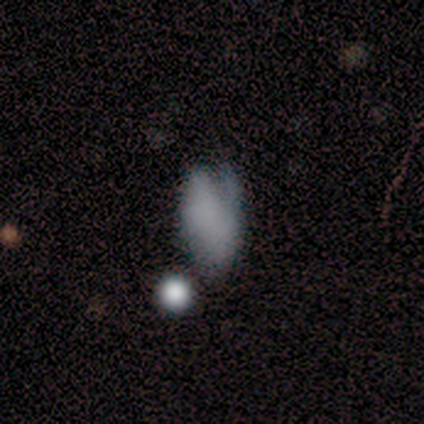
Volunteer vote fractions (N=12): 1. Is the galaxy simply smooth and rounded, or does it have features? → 58% smooth, 42% featured or disk, 0% star or artifact.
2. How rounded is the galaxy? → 100% in between, 0% round, 0% cigar-shaped.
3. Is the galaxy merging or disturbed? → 50% minor disturbance, 25% none, 25% major disturbance, 0% merger.